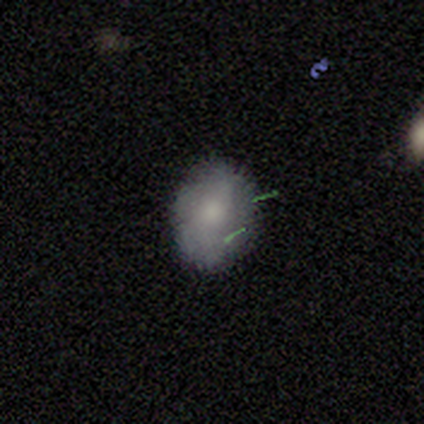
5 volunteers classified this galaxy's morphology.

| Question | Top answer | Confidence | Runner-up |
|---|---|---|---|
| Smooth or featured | smooth | 80% | star or artifact (20%) |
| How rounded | round | 50% | tied: in between (50%) |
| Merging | none | 75% | minor disturbance (25%) |